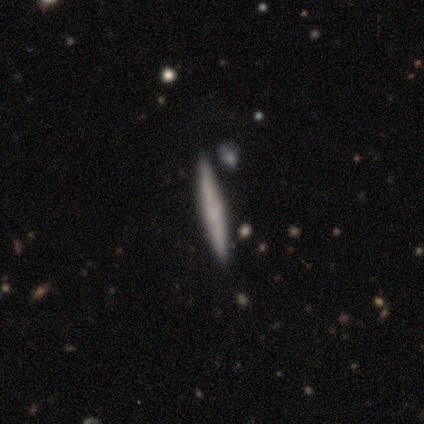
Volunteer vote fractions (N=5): This is likely a smooth galaxy (60%). How rounded: clearly cigar-shaped (100%). Merging: clearly none (100%).